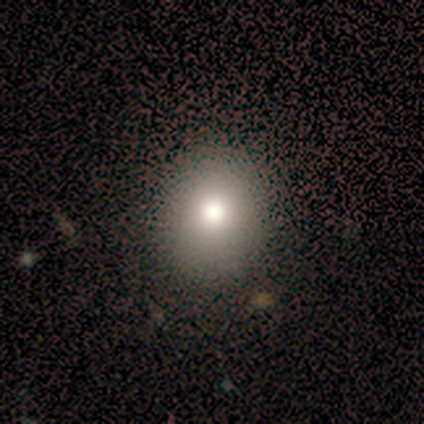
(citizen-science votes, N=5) smooth_or_featured: smooth (p=0.60) [alt: star or artifact p=0.40]
how_rounded: round (p=1.00)
merging: none (p=0.33) [tied with: minor disturbance p=0.33, major disturbance p=0.33]